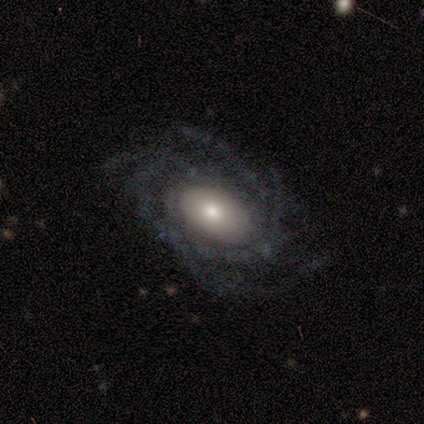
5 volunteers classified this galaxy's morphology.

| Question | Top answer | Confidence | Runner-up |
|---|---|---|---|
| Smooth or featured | featured or disk | 60% | smooth (20%) |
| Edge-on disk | no | 100% | — |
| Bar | no | 67% | weak (33%) |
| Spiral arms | yes | 100% | — |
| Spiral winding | tight | 67% | medium (33%) |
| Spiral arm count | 3 | 33% | tied: 4 (33%), can't tell (33%) |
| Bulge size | large | 33% | tied: moderate (33%), small (33%) |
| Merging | none | 75% | major disturbance (25%) |